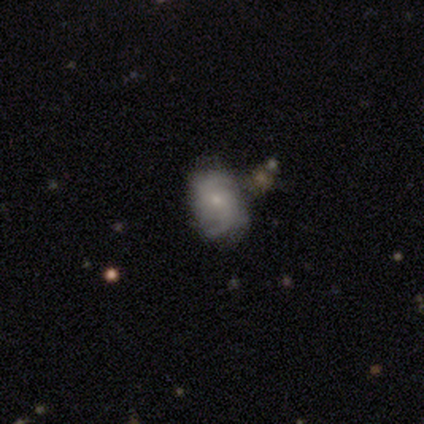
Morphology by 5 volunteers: A featured or disk galaxy (40%, tied with star or artifact) viewed edge-on (50%, tied with no) with a rounded central bulge (100%).

Vote fractions:
- Smooth or featured? featured or disk: 40% (tied) / star or artifact: 40% (tied) / smooth: 20%
- Edge-on disk? yes: 50% (tied) / no: 50% (tied)
- Edge-on bulge? rounded: 100% / boxy: 0% / none: 0%
- Merging? none: 33% (tied) / minor disturbance: 33% (tied) / major disturbance: 33% (tied) / merger: 0%